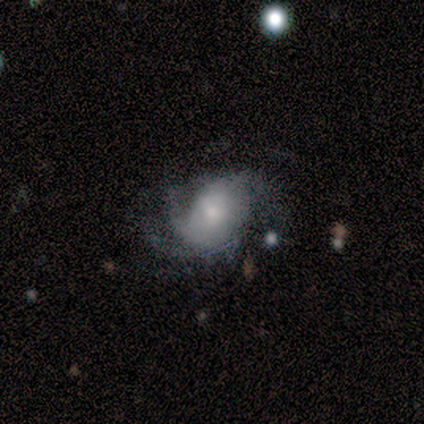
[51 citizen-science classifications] smooth-or-featured: featured or disk: 69% | smooth: 24% | star or artifact: 8%
  disk-edge-on: no: 94% | yes: 6%
    bar: no: 82% | weak: 18% | strong: 0%
    has-spiral-arms: yes: 91% | no: 9%
      spiral-winding: loose: 40% | tight: 30% | medium: 30%
      spiral-arm-count: 3: 37% | 2: 23% | can't tell: 23% | 4: 13% | more than 4: 3% | 1: 0%
    bulge-size: moderate: 45% | small: 39% | large: 9% | none: 6% | dominant: 0%
  merging: none: 45% | minor disturbance: 28% | major disturbance: 26% | merger: 2%